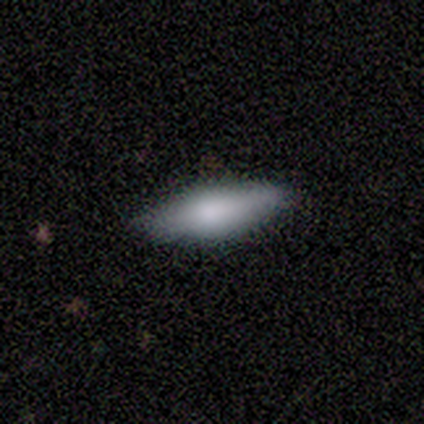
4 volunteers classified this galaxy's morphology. A smooth galaxy with no disk features (50%, tied with featured or disk) that is in between round and cigar-shaped (50%, tied with cigar-shaped). Merging: none (50%, tied with minor disturbance).